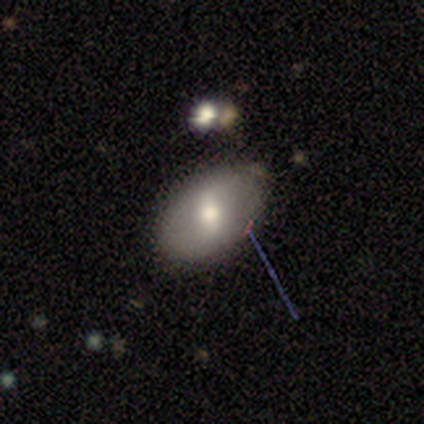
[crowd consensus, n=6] Q: Smooth or featured?
A: smooth (50%); tied with: featured or disk (50%)
Q: How rounded?
A: in between (100%)
Q: Merging?
A: none (83%); runner-up: minor disturbance (17%)